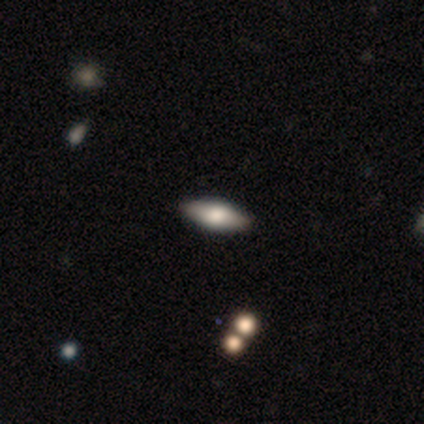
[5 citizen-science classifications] smooth 80%, featured or disk 20%, star or artifact 0%. Down the decision tree: how rounded — in between (75%); merging — none (100%).